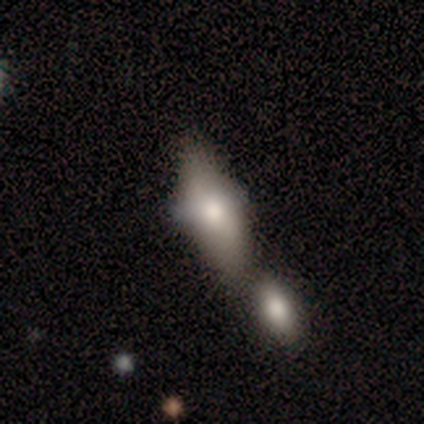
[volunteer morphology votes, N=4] Smooth or featured? smooth (100%)
How rounded? in between (75%)
Merging? none (25%, tied with minor disturbance, major disturbance and merger)